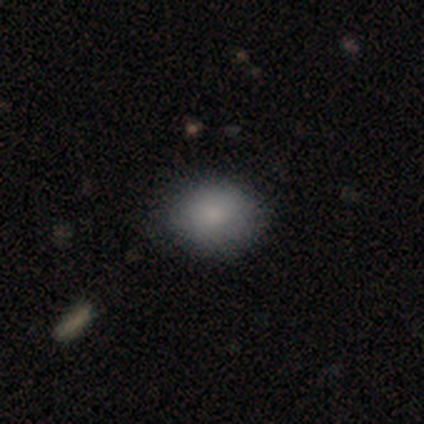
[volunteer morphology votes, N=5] type=smooth (80%); roundness=round (50%, tied with in between); merging=none (50%, tied with minor disturbance).